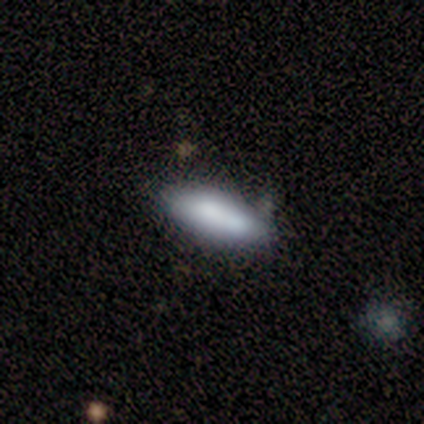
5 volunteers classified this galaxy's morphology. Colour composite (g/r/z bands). It shows a smooth galaxy with no disk features (80%) that is in between round and cigar-shaped (100%). Merging: none (40%, tied with merger).